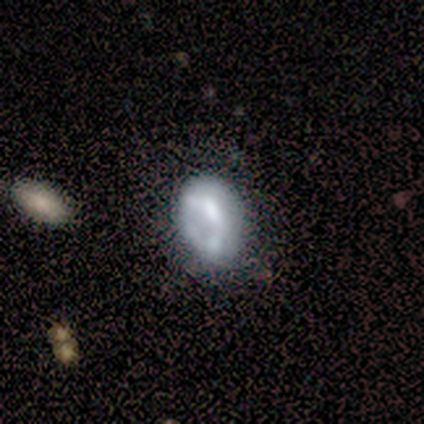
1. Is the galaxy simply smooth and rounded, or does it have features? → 60% featured or disk, 40% smooth, 0% star or artifact.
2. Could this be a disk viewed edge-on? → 100% no, 0% yes.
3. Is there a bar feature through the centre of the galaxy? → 100% no, 0% strong, 0% weak.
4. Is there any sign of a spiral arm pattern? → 100% no, 0% yes.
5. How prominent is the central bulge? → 100% none, 0% dominant, 0% large, 0% moderate, 0% small.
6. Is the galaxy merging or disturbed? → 60% minor disturbance, 20% none, 20% major disturbance, 0% merger.